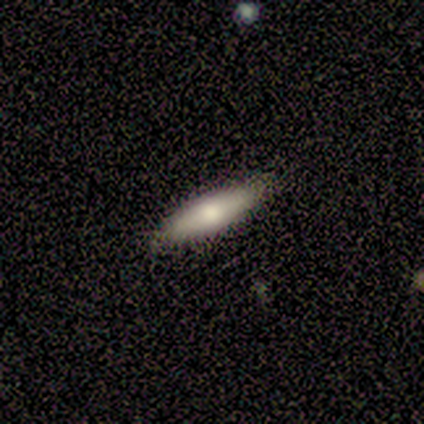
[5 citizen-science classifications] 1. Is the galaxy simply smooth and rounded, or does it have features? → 80% smooth, 20% star or artifact, 0% featured or disk.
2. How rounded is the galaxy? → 100% cigar-shaped, 0% round, 0% in between.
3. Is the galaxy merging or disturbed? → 100% none, 0% minor disturbance, 0% major disturbance, 0% merger.